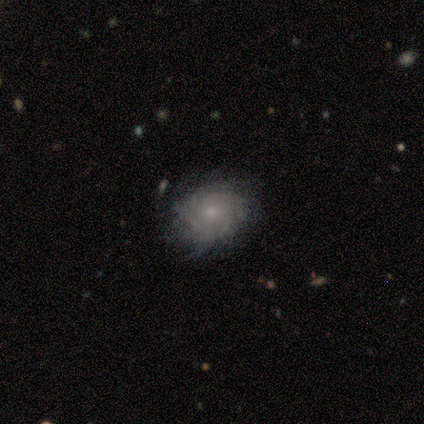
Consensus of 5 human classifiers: Smooth or featured? 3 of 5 (60%) said featured or disk. Edge-on disk? 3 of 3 (100%) said no. Bar? 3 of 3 (100%) said no. Spiral arms? 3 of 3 (100%) said yes. Spiral winding? 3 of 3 (100%) said tight. Spiral arm count? 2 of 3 (67%) said can't tell. Bulge size? 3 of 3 (100%) said small. Merging? 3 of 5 (60%) said none.